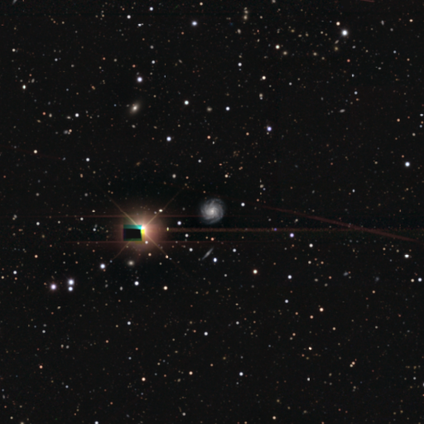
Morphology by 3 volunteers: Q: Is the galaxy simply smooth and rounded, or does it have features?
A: featured or disk — 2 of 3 (67%).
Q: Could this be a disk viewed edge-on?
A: no — 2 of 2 (100%).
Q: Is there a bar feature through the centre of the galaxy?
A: no — 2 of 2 (100%).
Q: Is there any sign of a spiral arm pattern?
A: yes — 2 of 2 (100%).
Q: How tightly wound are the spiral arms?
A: tight — 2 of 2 (100%).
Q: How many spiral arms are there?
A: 4 — 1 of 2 (50%, tied with can't tell).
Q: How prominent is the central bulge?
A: moderate — 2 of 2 (100%).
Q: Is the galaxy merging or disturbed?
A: none — 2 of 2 (100%).